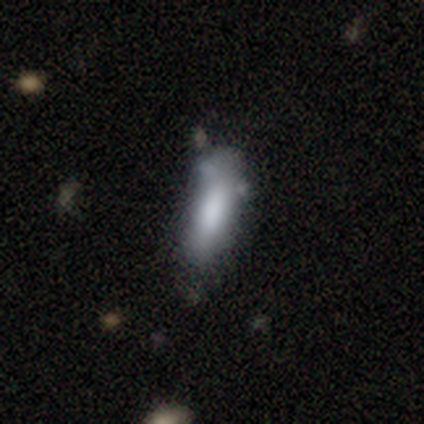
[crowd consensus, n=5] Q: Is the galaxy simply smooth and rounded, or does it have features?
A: smooth — 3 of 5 (60%).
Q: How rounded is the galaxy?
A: cigar-shaped — 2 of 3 (67%).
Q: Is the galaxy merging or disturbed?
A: minor disturbance — 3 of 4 (75%).